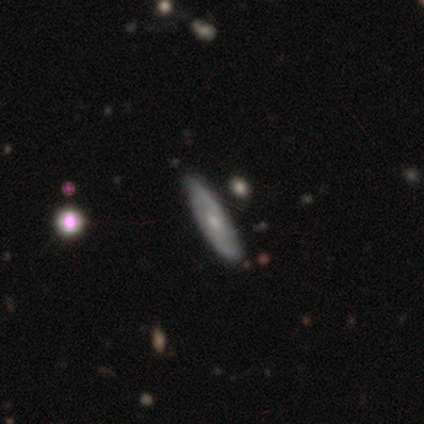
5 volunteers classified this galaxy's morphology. Volunteers were most divided on "spiral winding" (2-way tie): tight: 50%, medium: 50%, loose: 0%; "bulge size" (3-way tie): moderate: 33%, small: 33%, none: 33%, dominant: 0%, large: 0%; "merging" (2-way tie): none: 40%, minor disturbance: 40%, major disturbance: 20%, merger: 0%. More confident: spiral arm count — 2 (100%); smooth or featured — featured or disk (80%); edge-on disk — no (75%); bar — weak (67%); spiral arms — yes (67%).